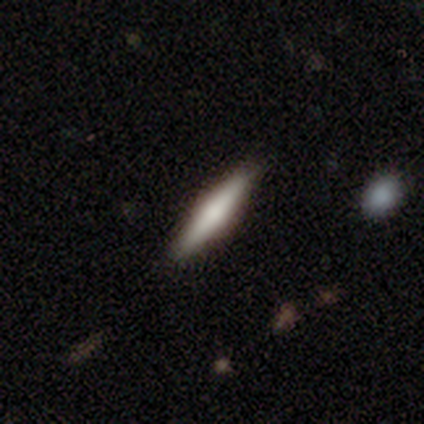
smooth 50%, featured or disk 45%, star or artifact 5%. Down the decision tree: how rounded — cigar-shaped (90%); merging — none (92%).